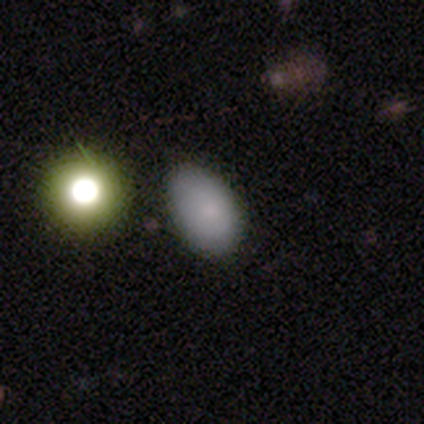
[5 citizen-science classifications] A smooth galaxy with no disk features (100%) that is in between round and cigar-shaped (100%). Merging: minor disturbance (60%).